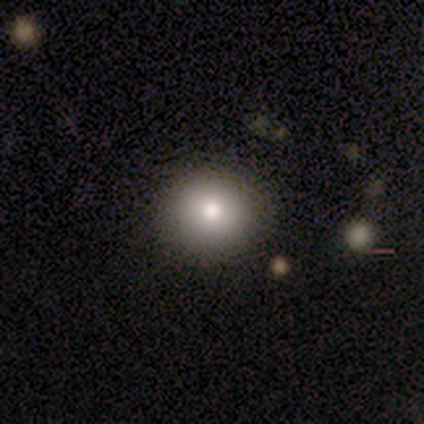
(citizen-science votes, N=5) A smooth galaxy with no disk features (60%) that is round (100%).

Vote fractions:
- Smooth or featured? smooth: 60% / featured or disk: 40% / star or artifact: 0%
- How rounded? round: 100% / in between: 0% / cigar-shaped: 0%
- Merging? none: 100% / minor disturbance: 0% / major disturbance: 0% / merger: 0%